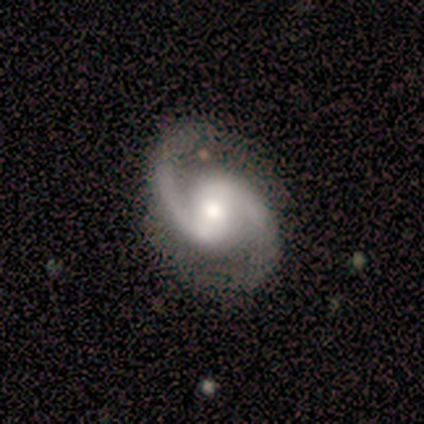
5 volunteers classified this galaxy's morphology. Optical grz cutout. It shows a featured or disk galaxy (100%) with a strong bar (40%, tied with no), 2 (100%) medium (80%) spiral arms (100%) and a moderate central bulge (80%). Merging: none (100%).